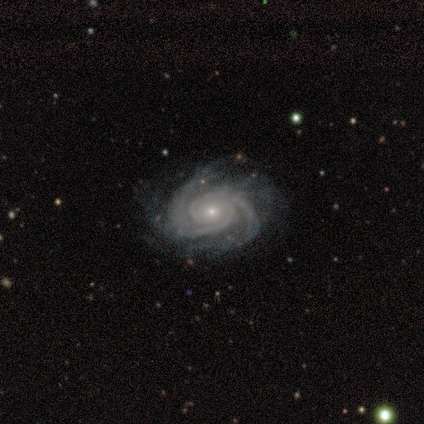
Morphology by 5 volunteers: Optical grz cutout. It shows a featured or disk galaxy (100%) with no bar (80%), 2 (40%, tied with 3) tight (80%) spiral arms (100%) and a moderate central bulge (40%, tied with small). Merging: none (80%).